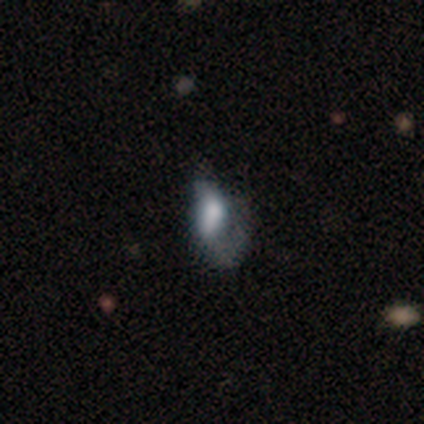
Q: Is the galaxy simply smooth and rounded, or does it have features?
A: featured or disk — 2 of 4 (50%).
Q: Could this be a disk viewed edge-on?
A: no — 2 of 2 (100%).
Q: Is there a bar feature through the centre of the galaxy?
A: no — 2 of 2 (100%).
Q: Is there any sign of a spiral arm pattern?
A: no — 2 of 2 (100%).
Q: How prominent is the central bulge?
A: large — 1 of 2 (50%, tied with none).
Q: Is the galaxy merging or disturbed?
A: major disturbance — 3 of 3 (100%).